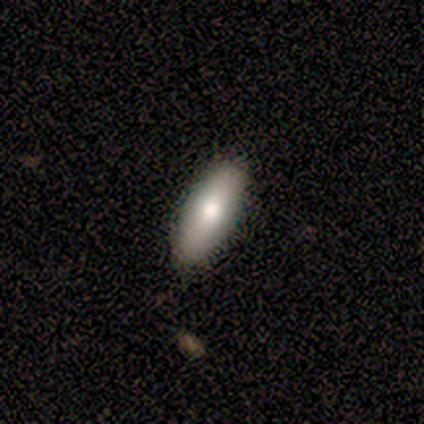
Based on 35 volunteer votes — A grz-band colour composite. It shows a smooth galaxy with no disk features (77%) that is in between round and cigar-shaped (70%). Merging: none (71%).